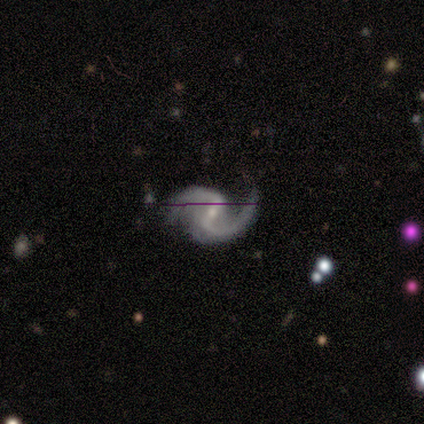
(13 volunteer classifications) Overall: featured or disk (100%). Edge-on disk: no (100%). Bar: strong (46%; weak 38%). Spiral arms: yes (100%). Spiral arm count: 2 (85%). Spiral winding: loose (69%; medium 31%). Bulge size: small (69%). Merging: none (69%; minor disturbance 31%).